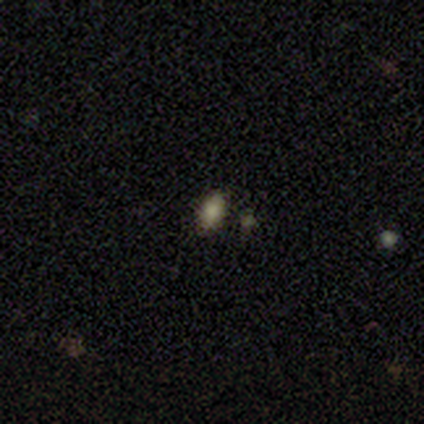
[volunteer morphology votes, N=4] Consensus on every question: smooth or featured — smooth (100%); how rounded — in between (100%); merging — none (100%).